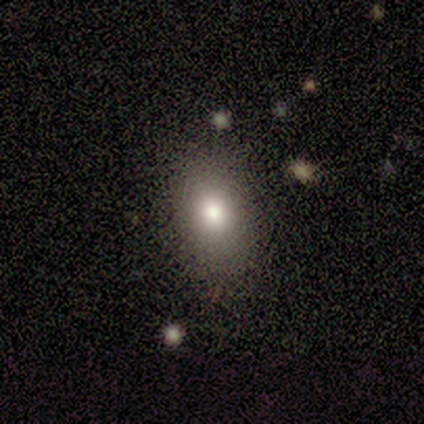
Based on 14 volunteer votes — Smooth or featured?
  - smooth: 71% *
  - featured or disk: 14%
  - star or artifact: 14%
How rounded?
  - in between: 90% *
  - round: 10%
  - cigar-shaped: 0%
Merging?
  - none: 100% *
  - minor disturbance: 0%
  - major disturbance: 0%
  - merger: 0%